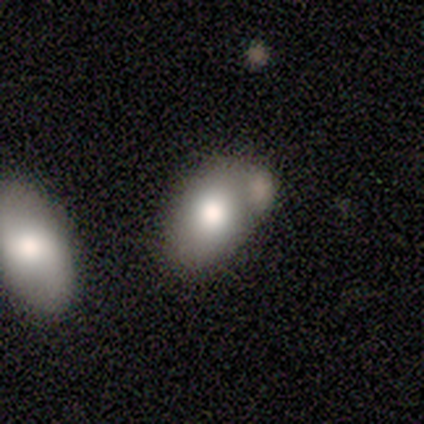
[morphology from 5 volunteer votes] smooth_or_featured: smooth (p=0.80) [alt: featured or disk p=0.20]
how_rounded: in between (p=1.00)
merging: major disturbance (p=0.60) [alt: merger p=0.40]